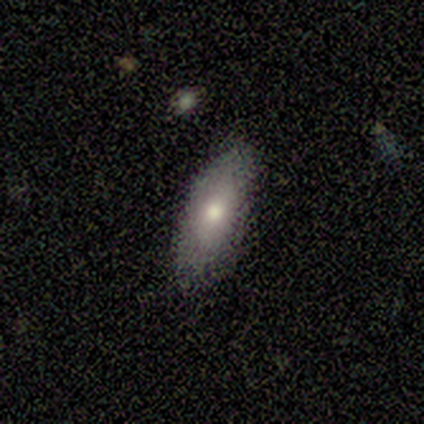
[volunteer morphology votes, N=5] Overall: smooth (100%). How rounded: in between (60%; cigar-shaped 40%). Merging: none (80%).